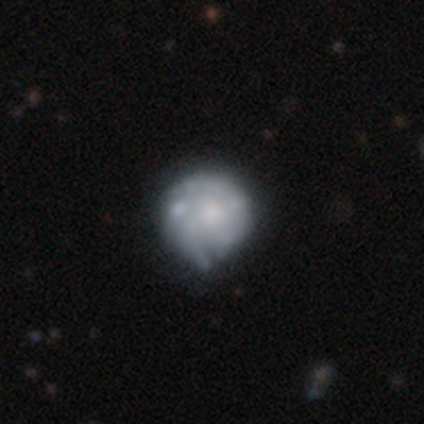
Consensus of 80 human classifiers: A featured or disk galaxy (71%) with no bar (89%), tight (66%) spiral arms (67%) and a moderate central bulge (40%). Merging: none (23%).